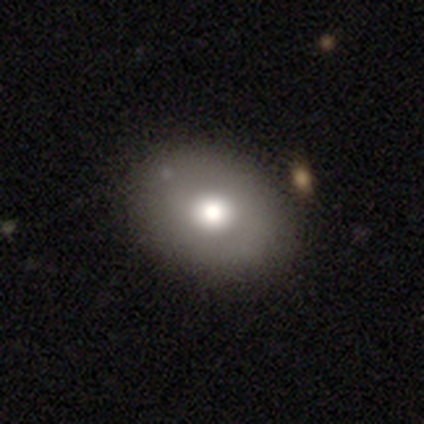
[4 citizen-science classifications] smooth 100%, featured or disk 0%, star or artifact 0%. Down the decision tree: how rounded — in between (75%); merging — none (75%).